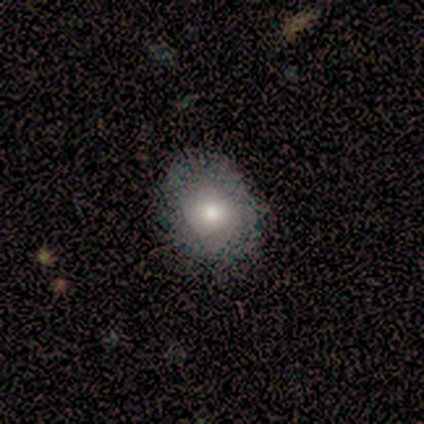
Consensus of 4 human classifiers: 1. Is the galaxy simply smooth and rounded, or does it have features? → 75% smooth, 25% featured or disk, 0% star or artifact.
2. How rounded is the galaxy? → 100% in between, 0% round, 0% cigar-shaped.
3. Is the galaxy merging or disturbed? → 75% none, 25% minor disturbance, 0% major disturbance, 0% merger.